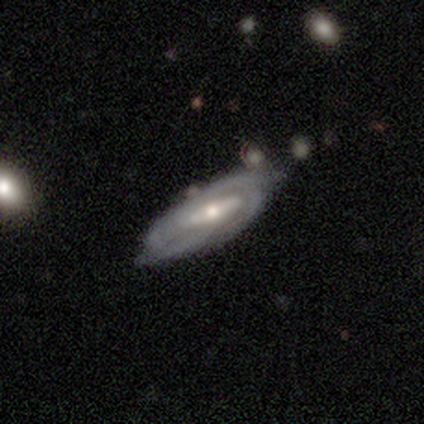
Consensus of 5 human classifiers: Smooth or featured? smooth (60%)
How rounded? in between (100%)
Merging? none (60%)